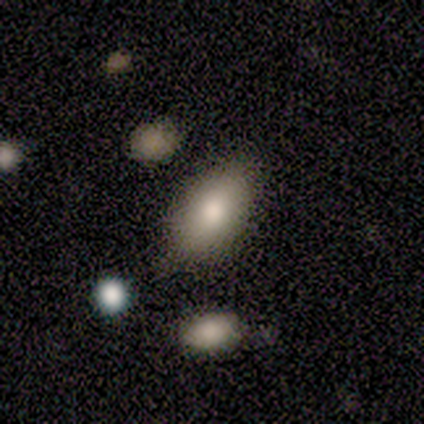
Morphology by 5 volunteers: A featured or disk galaxy (80%) with no bar (67%), no spiral arms (67%) and a moderate central bulge (100%). Merging: none (75%).